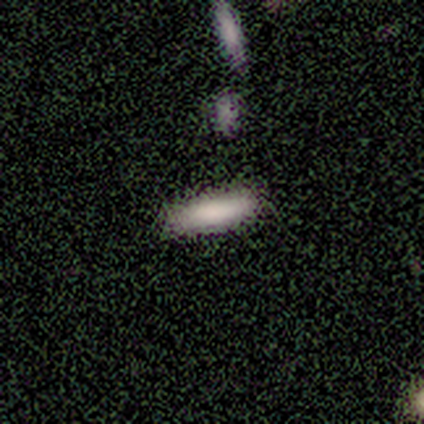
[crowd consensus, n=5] A smooth galaxy with no disk features (100%) that is cigar-shaped (100%). Merging: none (100%).